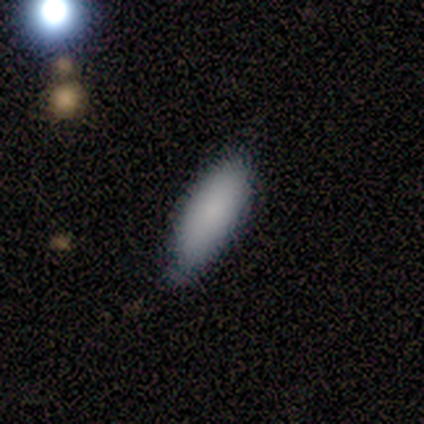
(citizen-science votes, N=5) Volunteers were most divided on "merging": none: 60%, minor disturbance: 40%, major disturbance: 0%, merger: 0%. More confident: smooth or featured — smooth (100%); how rounded — in between (100%).